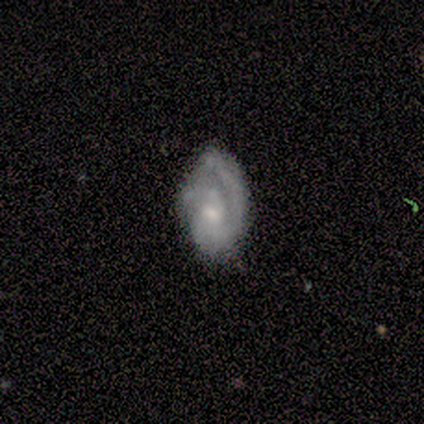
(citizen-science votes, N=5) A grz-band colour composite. It shows a featured or disk galaxy (100%) with no bar (80%), 1 (40%, tied with 2) loose (80%) spiral arms (100%) and a small central bulge (60%). Merging: none (80%).